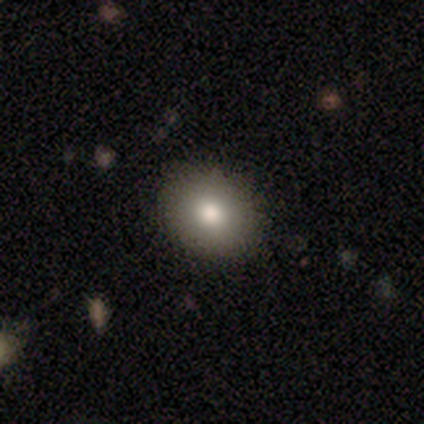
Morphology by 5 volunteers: type=smooth (80%); roundness=in between (75%); merging=none (75%).